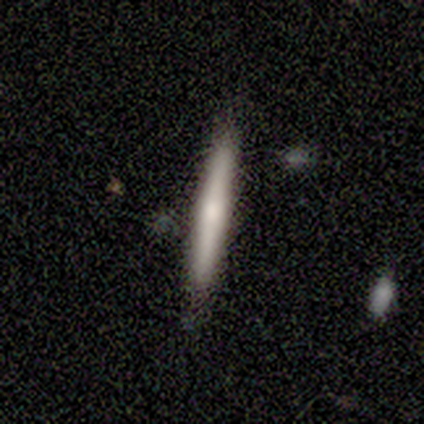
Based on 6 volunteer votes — Volunteers were most divided on "smooth or featured": smooth: 83%, featured or disk: 17%, star or artifact: 0%. More confident: how rounded — cigar-shaped (100%); merging — none (83%).